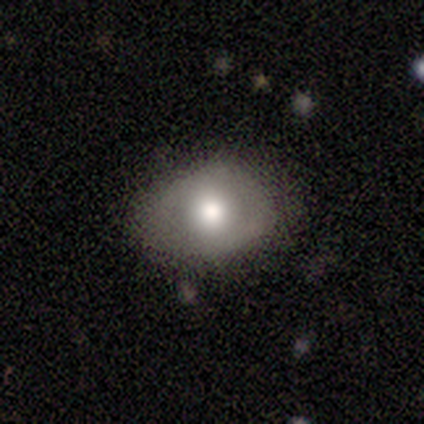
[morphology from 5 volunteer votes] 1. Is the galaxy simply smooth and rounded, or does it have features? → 60% smooth, 40% featured or disk, 0% star or artifact.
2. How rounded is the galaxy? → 67% round, 33% in between, 0% cigar-shaped.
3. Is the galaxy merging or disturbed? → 80% none, 20% minor disturbance, 0% major disturbance, 0% merger.